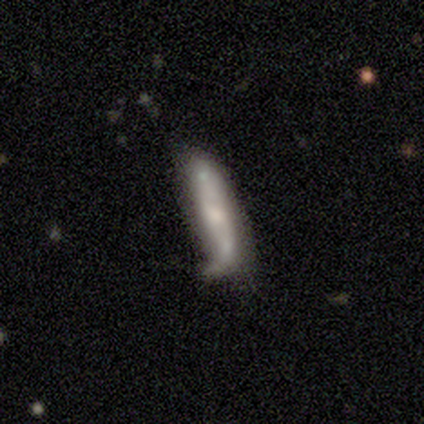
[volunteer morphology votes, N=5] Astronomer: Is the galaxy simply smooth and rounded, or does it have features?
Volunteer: featured or disk — 60% (runner-up: smooth, 40%).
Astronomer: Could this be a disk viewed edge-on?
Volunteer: no — 67%.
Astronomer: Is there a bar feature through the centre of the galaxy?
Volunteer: weak — 50%, tied with no at 50%.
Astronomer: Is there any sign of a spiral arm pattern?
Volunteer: yes — 50%, tied with no at 50%.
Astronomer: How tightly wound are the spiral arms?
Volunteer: loose — 100%.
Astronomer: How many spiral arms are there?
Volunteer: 2 — 100%.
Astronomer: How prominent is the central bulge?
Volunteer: moderate — 100%.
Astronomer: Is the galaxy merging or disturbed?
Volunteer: none — 80%.